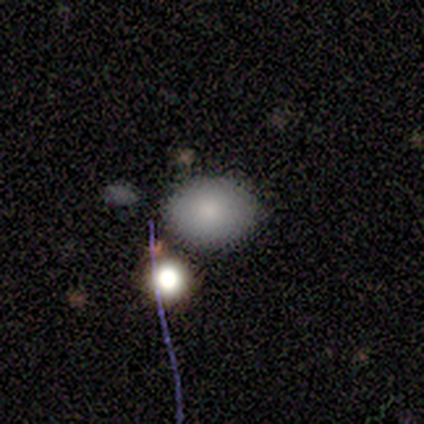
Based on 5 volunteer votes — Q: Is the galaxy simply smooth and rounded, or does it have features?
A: smooth — 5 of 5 (100%).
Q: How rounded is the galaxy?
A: round — 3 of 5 (60%).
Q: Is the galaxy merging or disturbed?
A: none — 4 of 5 (80%).